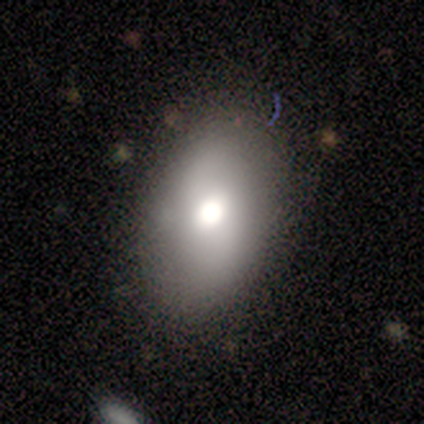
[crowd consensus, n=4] Overall: smooth (50%, tied with featured or disk). How rounded: in between (100%). Merging: none (100%).